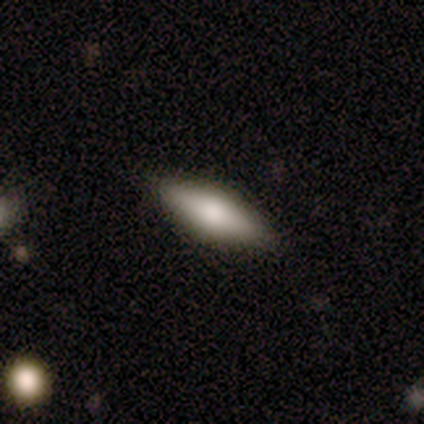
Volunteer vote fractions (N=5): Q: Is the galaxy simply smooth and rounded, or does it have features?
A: smooth — 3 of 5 (60%).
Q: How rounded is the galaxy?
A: in between — 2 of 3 (67%).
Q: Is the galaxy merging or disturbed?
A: none — 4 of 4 (100%).